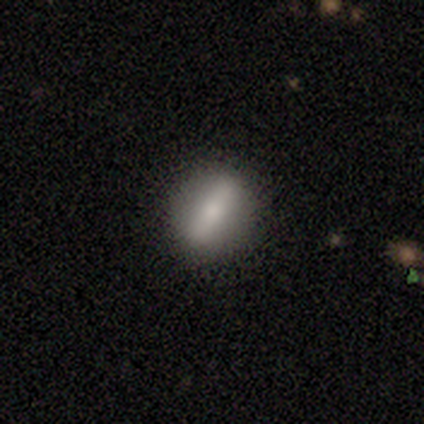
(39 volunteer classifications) Smooth or featured: smooth — 49% (featured or disk — 46%)
How rounded: round — 53% (in between — 37%)
Merging: none — 97% (minor disturbance — 3%)